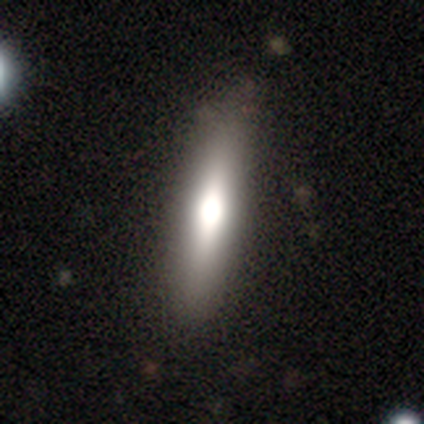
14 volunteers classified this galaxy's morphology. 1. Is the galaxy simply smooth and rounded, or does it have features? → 50% smooth (tied), 50% featured or disk (tied), 0% star or artifact.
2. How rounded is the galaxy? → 86% cigar-shaped, 14% in between, 0% round.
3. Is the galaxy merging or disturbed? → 86% none, 14% minor disturbance, 0% major disturbance, 0% merger.